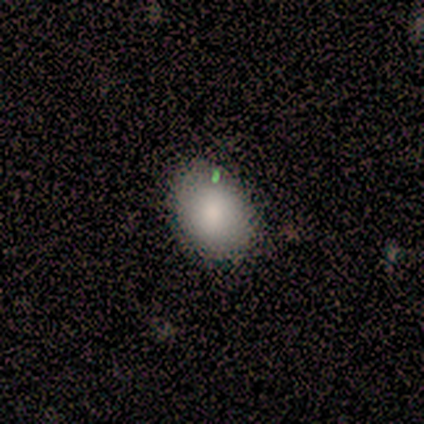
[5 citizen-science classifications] Smooth or featured: smooth — 100%
How rounded: in between — 60% (round — 40%)
Merging: none — 80% (minor disturbance — 20%)